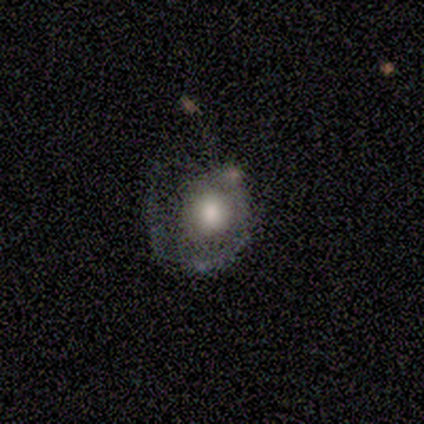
Volunteers were most divided on "merging" (2-way tie): none: 40%, major disturbance: 40%, minor disturbance: 20%, merger: 0%. More confident: smooth or featured — featured or disk (100%); edge-on disk — no (100%); bar — no (100%); spiral arm count — 1 (100%); spiral winding — tight (67%); spiral arms — yes (60%); bulge size — moderate (60%).